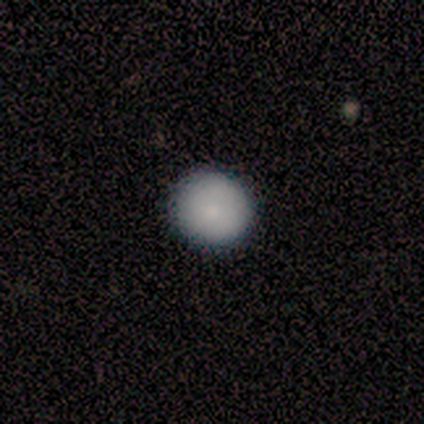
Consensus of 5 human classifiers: Smooth or featured? 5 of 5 (100%) said smooth. How rounded? 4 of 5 (80%) said round. Merging? 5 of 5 (100%) said none.